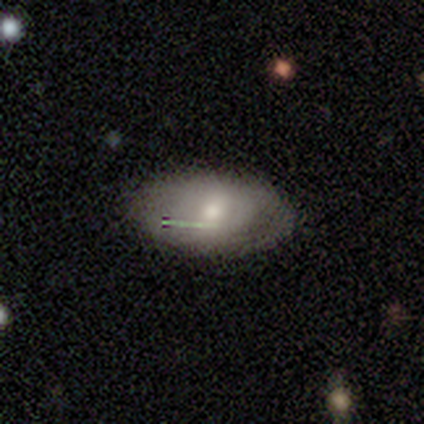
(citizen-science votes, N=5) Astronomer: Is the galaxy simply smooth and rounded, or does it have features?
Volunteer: smooth — 40%, tied with star or artifact at 40%.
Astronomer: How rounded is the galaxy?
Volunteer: in between — 100%.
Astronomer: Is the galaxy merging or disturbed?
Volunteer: minor disturbance — 67%.